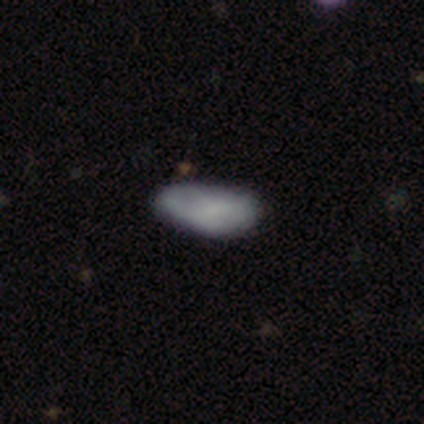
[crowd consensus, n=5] smooth 100%, featured or disk 0%, star or artifact 0%. Down the decision tree: how rounded — in between (100%); merging — none (60%).